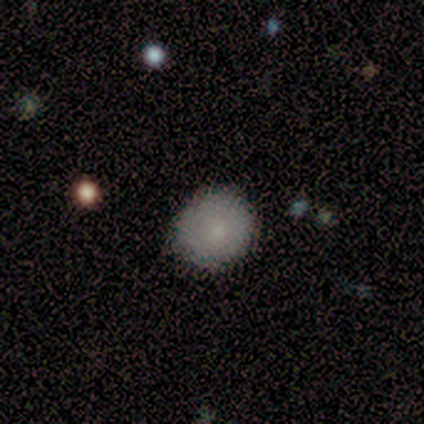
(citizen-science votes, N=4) A smooth galaxy with no disk features (75%) that is round (100%). Merging: none (100%).